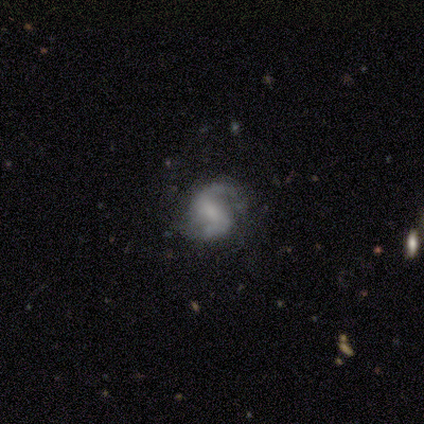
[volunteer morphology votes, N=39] Smooth or featured? 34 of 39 (87%) said featured or disk. Edge-on disk? 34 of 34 (100%) said no. Bar? 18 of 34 (53%) said weak. Spiral arms? 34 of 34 (100%) said yes. Spiral winding? 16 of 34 (47%) said medium. Spiral arm count? 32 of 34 (94%) said 2. Bulge size? 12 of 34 (35%) said none. Merging? 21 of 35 (60%) said none.